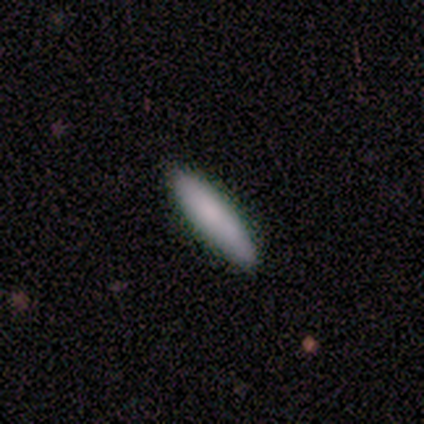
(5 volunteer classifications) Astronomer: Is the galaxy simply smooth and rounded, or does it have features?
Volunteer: smooth — 100%.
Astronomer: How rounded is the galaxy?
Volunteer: cigar-shaped — 80%.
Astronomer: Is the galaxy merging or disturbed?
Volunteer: none — 80%.